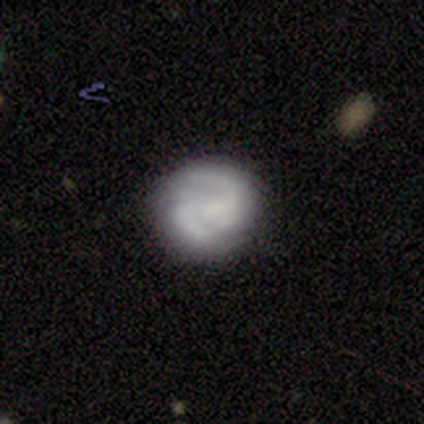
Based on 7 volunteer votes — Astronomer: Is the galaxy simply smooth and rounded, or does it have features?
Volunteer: featured or disk — 71%.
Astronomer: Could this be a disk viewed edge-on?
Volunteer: no — 100%.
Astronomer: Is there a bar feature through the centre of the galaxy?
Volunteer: weak — 60%.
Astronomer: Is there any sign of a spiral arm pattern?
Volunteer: yes — 100%.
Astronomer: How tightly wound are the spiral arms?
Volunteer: medium — 80%.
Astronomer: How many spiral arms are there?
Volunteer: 2 — 80%.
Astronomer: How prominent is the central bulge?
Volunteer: small — 40%, tied with none at 40%.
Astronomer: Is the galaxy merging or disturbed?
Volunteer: minor disturbance — 50% (runner-up: none, 33%).